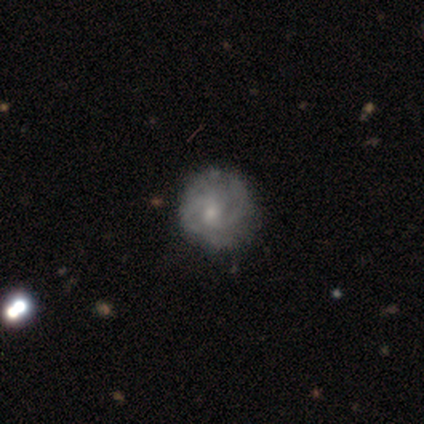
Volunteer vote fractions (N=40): Volunteers were most divided on "spiral arm count": 2: 50%, can't tell: 45%, 4: 5%, 1: 0%, 3: 0%, more than 4: 0%. More confident: spiral arms — yes (96%); edge-on disk — no (92%); bar — no (78%); bulge size — small (70%); smooth or featured — featured or disk (62%); merging — none (55%); spiral winding — tight (55%).